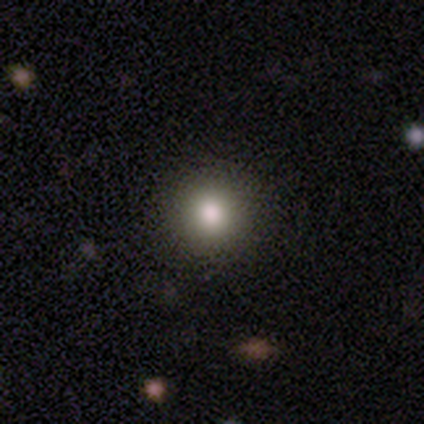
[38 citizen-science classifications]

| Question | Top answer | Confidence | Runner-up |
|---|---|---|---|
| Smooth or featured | smooth | 87% | star or artifact (11%) |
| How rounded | round | 88% | in between (12%) |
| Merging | none | 85% | minor disturbance (12%) |